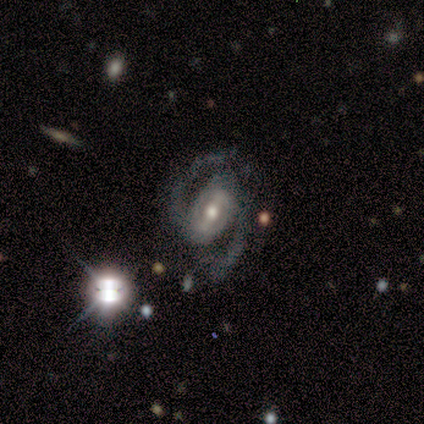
A featured or disk galaxy (95%) with a strong bar (46%), 2 (100%) medium (61%) spiral arms (97%) and a moderate central bulge (59%). Merging: none (76%).